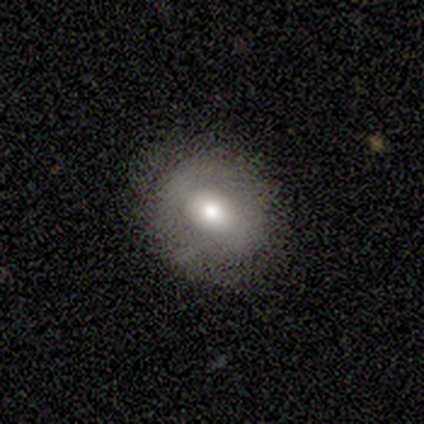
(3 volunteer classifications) Overall: smooth (100%). How rounded: in between (67%; round 33%). Merging: none (100%).